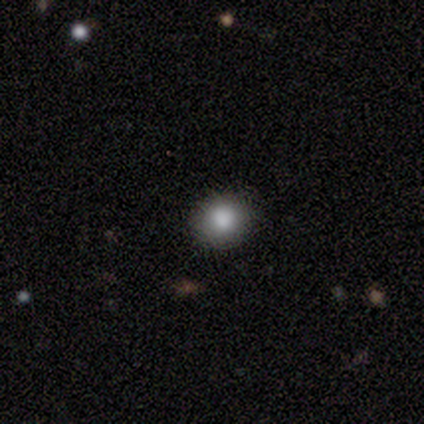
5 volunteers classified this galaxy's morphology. A smooth galaxy with no disk features (80%) that is round (100%). Merging: none (100%).